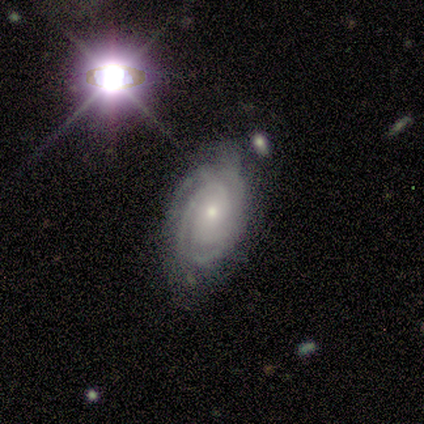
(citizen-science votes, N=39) Volunteers were most divided on "spiral arm count": 2: 33%, 3: 27%, can't tell: 21%, more than 4: 9%, 4: 6%, 1: 3%. More confident: spiral arms — yes (97%); edge-on disk — no (94%); smooth or featured — featured or disk (92%); bar — no (79%); spiral winding — tight (70%); bulge size — small (65%); merging — none (62%).